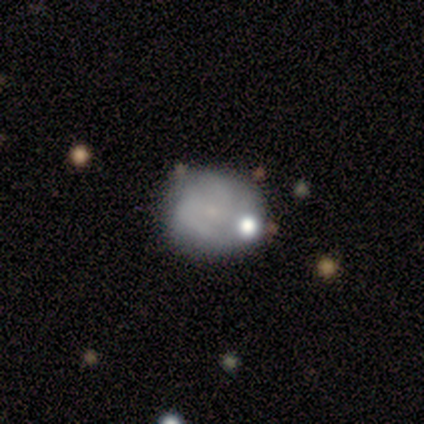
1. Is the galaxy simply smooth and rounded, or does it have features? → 80% smooth, 20% star or artifact, 0% featured or disk.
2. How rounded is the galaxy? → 75% in between, 25% round, 0% cigar-shaped.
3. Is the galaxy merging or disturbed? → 25% none (tied), 25% minor disturbance (tied), 25% major disturbance (tied), 25% merger (tied).